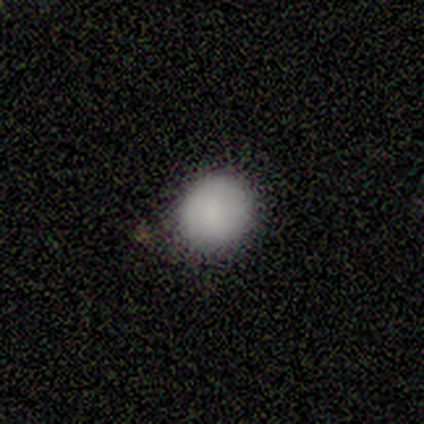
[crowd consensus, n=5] Overall: smooth (100%). How rounded: round (80%). Merging: none (80%).